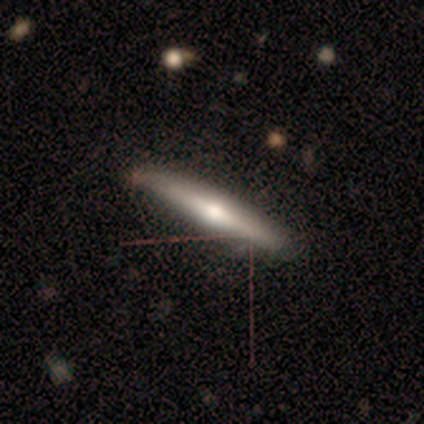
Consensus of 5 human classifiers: Smooth or featured? smooth (60%)
How rounded? cigar-shaped (100%)
Merging? none (80%)